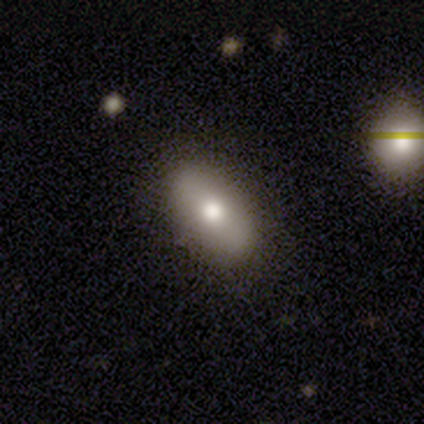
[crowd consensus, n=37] Smooth or featured: smooth — 70% (featured or disk — 30%)
How rounded: in between — 100%
Merging: none — 78% (minor disturbance — 22%)